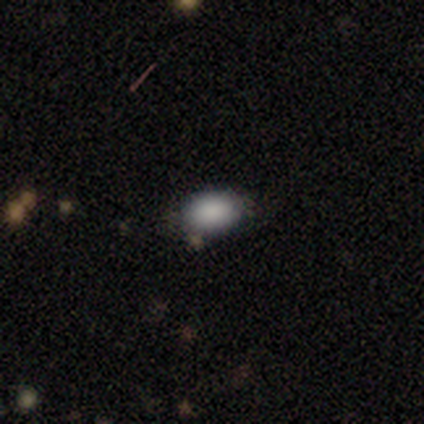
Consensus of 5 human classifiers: Volunteers were most divided on "how rounded": in between: 80%, round: 20%, cigar-shaped: 0%. More confident: smooth or featured — smooth (100%); merging — none (80%).